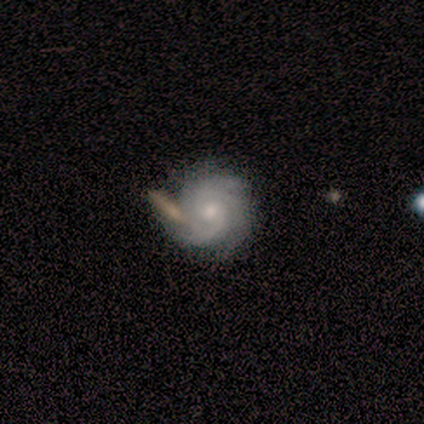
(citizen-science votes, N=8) Q: Smooth or featured?
A: featured or disk (100%)
Q: Edge-on disk?
A: no (88%); runner-up: yes (12%)
Q: Bar?
A: no (86%); runner-up: weak (14%)
Q: Spiral arms?
A: yes (100%)
Q: Spiral winding?
A: tight (100%)
Q: Spiral arm count?
A: 3 (43%); runner-up: 2 (29%)
Q: Bulge size?
A: moderate (57%); runner-up: small (43%)
Q: Merging?
A: none (75%); runner-up: minor disturbance (25%)